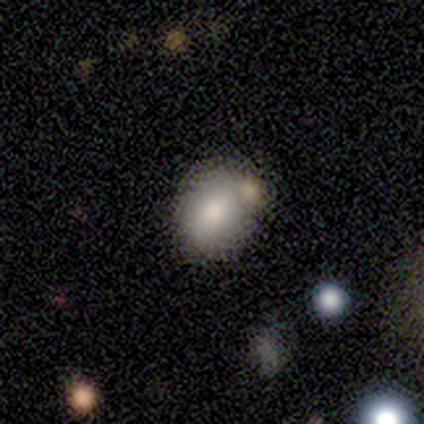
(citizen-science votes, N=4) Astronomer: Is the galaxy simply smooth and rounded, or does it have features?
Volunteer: smooth — 100%.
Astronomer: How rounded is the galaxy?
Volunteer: round — 75%.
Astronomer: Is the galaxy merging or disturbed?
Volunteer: none — 75%.